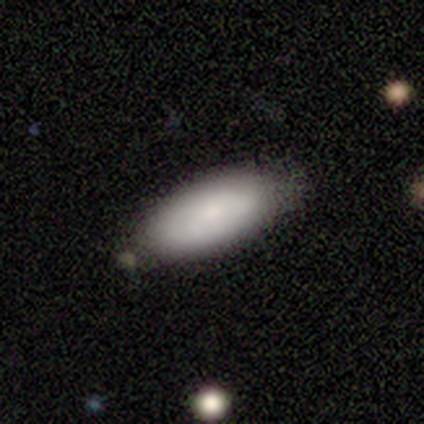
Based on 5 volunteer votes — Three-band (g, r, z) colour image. It shows a smooth galaxy with no disk features (80%) that is in between round and cigar-shaped (100%). Merging: none (60%).